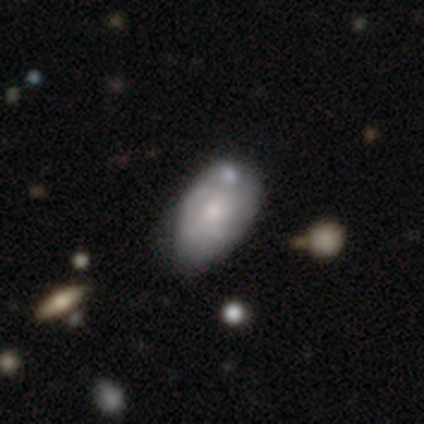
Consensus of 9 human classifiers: Smooth or featured? smooth (56%)
How rounded? in between (100%)
Merging? minor disturbance (56%)